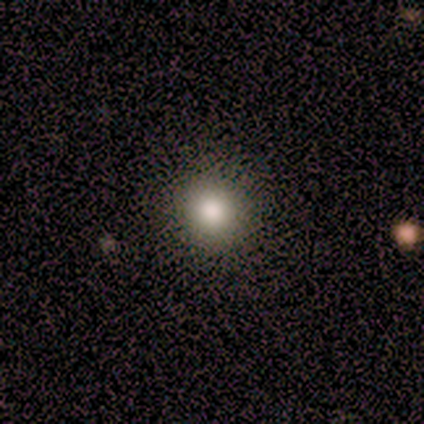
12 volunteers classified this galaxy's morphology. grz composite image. It shows a smooth galaxy with no disk features (58%) that is round (100%). Merging: none (100%).